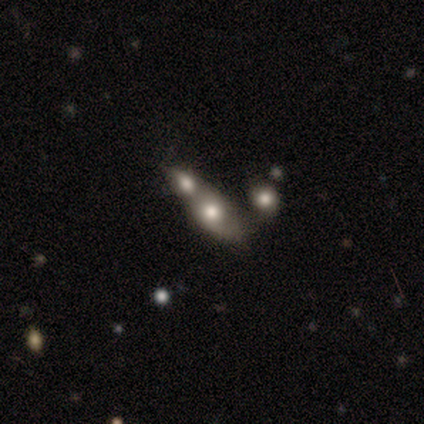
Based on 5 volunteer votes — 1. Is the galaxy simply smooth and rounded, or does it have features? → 60% smooth, 40% featured or disk, 0% star or artifact.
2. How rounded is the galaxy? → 100% in between, 0% round, 0% cigar-shaped.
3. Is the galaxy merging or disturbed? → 80% merger, 20% none, 0% minor disturbance, 0% major disturbance.